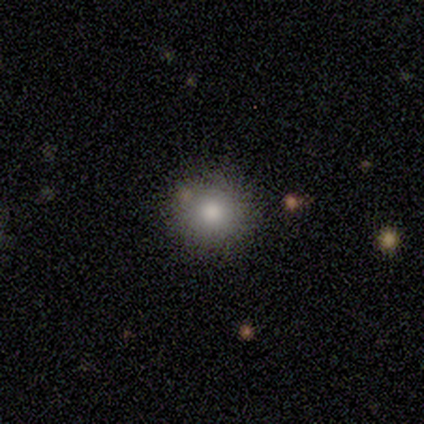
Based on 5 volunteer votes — Smooth or featured?
  - smooth: 100% *
  - featured or disk: 0%
  - star or artifact: 0%
How rounded?
  - round: 100% *
  - in between: 0%
  - cigar-shaped: 0%
Merging?
  - none: 60% *
  - minor disturbance: 40%
  - major disturbance: 0%
  - merger: 0%